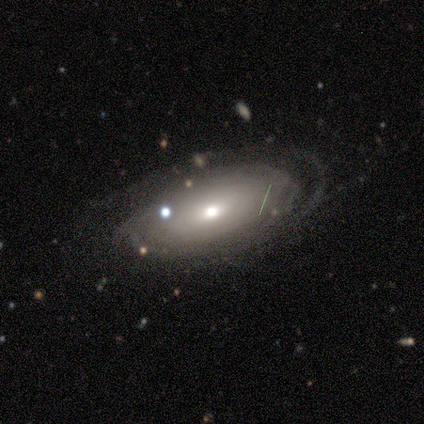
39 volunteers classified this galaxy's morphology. smooth-or-featured: featured or disk: 72% | smooth: 28% | star or artifact: 0%
  disk-edge-on: no: 86% | yes: 14%
    bar: no: 75% | weak: 25% | strong: 0%
    has-spiral-arms: yes: 62% | no: 38%
      spiral-winding: tight: 67% | medium: 27% | loose: 7%
      spiral-arm-count: can't tell: 60% | 1: 13% | 2: 7% | 3: 7% | 4: 7% | more than 4: 7%
    bulge-size: moderate: 67% | small: 29% | large: 4% | dominant: 0% | none: 0%
  merging: none: 54% | minor disturbance: 31% | major disturbance: 15% | merger: 0%